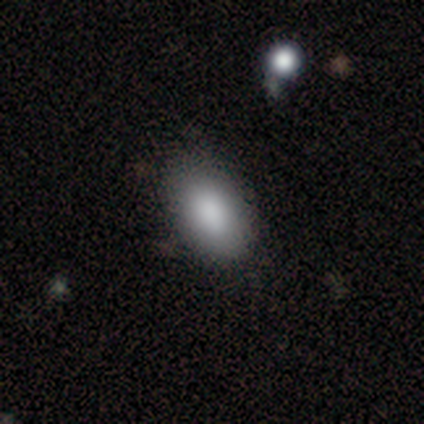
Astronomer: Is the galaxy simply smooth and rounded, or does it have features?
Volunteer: smooth — 100%.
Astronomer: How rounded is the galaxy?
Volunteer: in between — 100%.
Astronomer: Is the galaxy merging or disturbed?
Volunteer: none — 88%.